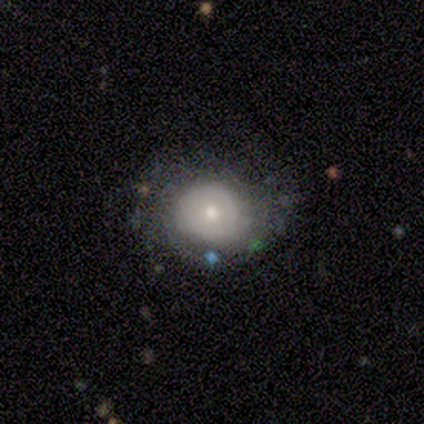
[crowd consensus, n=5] Smooth or featured?
  - featured or disk: 80% *
  - smooth: 20%
  - star or artifact: 0%
Edge-on disk?
  - no: 100% *
  - yes: 0%
Bar?
  - weak: 50% * (tied)
  - no: 50% * (tied)
  - strong: 0%
Spiral arms?
  - yes: 100% *
  - no: 0%
Spiral winding?
  - tight: 75% *
  - medium: 25%
  - loose: 0%
Spiral arm count?
  - 2: 50% * (tied)
  - can't tell: 50% * (tied)
  - 1: 0%
  - 3: 0%
  - 4: 0%
  - more than 4: 0%
Bulge size?
  - small: 50% *
  - large: 25%
  - moderate: 25%
  - dominant: 0%
  - none: 0%
Merging?
  - none: 80% *
  - minor disturbance: 20%
  - major disturbance: 0%
  - merger: 0%